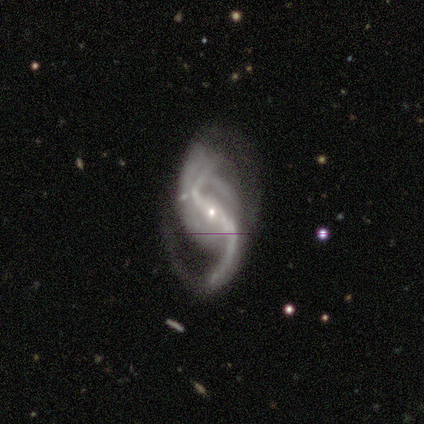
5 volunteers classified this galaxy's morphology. Smooth or featured: featured or disk — 80% (star or artifact — 20%)
Edge-on disk: no — 100%
Bar: strong — 75% (weak — 25%)
Spiral arms: yes — 75% (no — 25%)
Spiral winding: loose — 100%
Spiral arm count: 2 — 100%
Bulge size: small — 75% (none — 25%)
Merging: major disturbance — 50% (none — 25%)